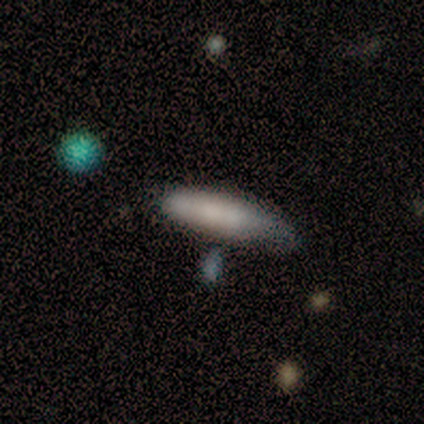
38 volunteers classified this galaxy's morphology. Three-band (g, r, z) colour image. It shows a smooth galaxy with no disk features (58%) that is cigar-shaped (68%). Merging: none (60%).